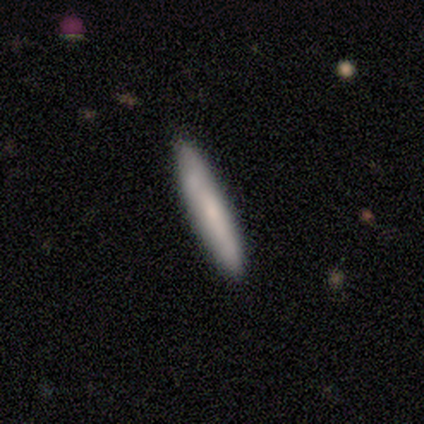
This appears to be a smooth galaxy with no disk features (100%) that is cigar-shaped (80%). Merging: none (100%).